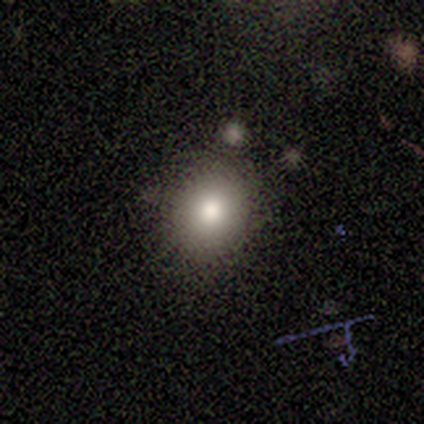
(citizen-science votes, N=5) Overall: smooth (100%). How rounded: round (60%; in between 40%). Merging: none (80%).